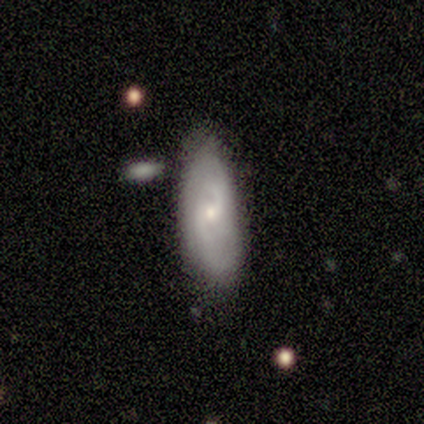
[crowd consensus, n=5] This appears to be a featured or disk galaxy (60%) with a weak bar (67%), 2 (67%) medium (67%) spiral arms (100%) and a small central bulge (100%). Merging: none (75%).